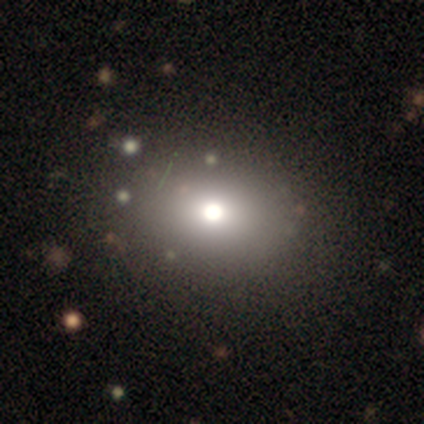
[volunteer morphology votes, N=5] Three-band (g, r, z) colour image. It shows a smooth galaxy with no disk features (80%) that is in between round and cigar-shaped (75%). Merging: none (100%).